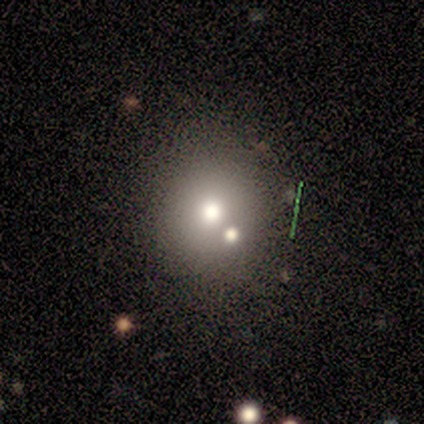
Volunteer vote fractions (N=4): smooth_or_featured: smooth (p=0.50) [tied with: star or artifact p=0.50]
how_rounded: round (p=1.00)
merging: none (p=1.00)